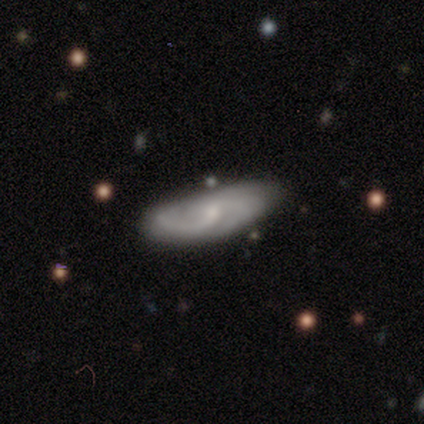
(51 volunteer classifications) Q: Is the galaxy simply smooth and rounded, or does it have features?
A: featured or disk — 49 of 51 (96%).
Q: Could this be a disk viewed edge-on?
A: no — 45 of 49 (92%).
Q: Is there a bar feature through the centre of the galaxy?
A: no — 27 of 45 (60%).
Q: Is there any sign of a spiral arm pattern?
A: yes — 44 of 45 (98%).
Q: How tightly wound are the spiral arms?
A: medium — 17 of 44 (39%).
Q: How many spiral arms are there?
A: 2 — 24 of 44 (55%).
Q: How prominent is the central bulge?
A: small — 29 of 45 (64%).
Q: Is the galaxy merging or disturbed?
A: none — 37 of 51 (73%).